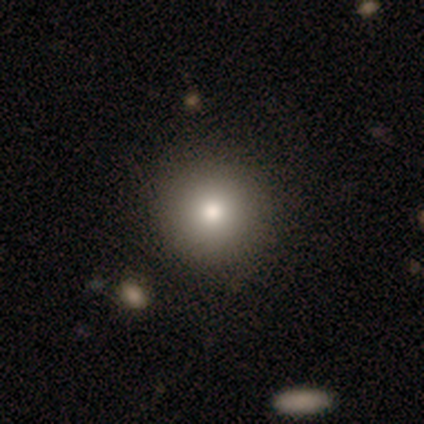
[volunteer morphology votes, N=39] Q: Smooth or featured?
A: smooth (79%); runner-up: featured or disk (21%)
Q: How rounded?
A: round (90%); runner-up: in between (10%)
Q: Merging?
A: none (74%); runner-up: minor disturbance (5%)